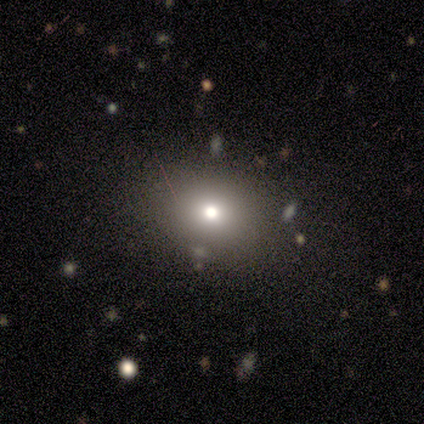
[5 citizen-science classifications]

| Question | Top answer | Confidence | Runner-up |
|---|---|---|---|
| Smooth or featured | smooth | 80% | star or artifact (20%) |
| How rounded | round | 75% | in between (25%) |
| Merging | none | 75% | merger (25%) |